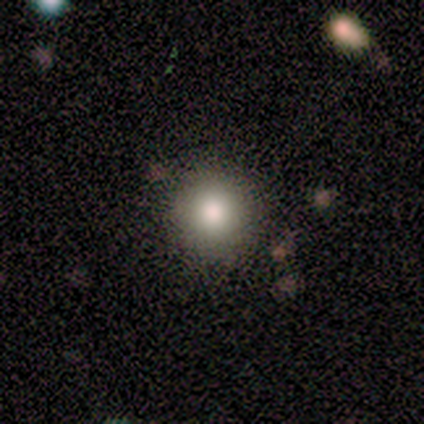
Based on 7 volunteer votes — A smooth galaxy with no disk features (71%) that is round (80%).

Vote fractions:
- Smooth or featured? smooth: 71% / featured or disk: 14% / star or artifact: 14%
- How rounded? round: 80% / in between: 20% / cigar-shaped: 0%
- Merging? none: 100% / minor disturbance: 0% / major disturbance: 0% / merger: 0%